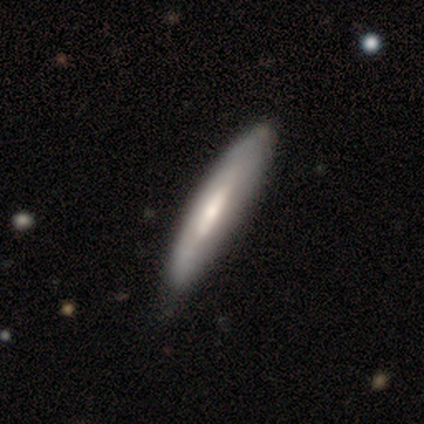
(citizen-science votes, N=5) A featured or disk galaxy (80%) with a weak bar (100%), no spiral arms (67%) and a moderate central bulge (100%). Merging: none (40%, tied with minor disturbance).